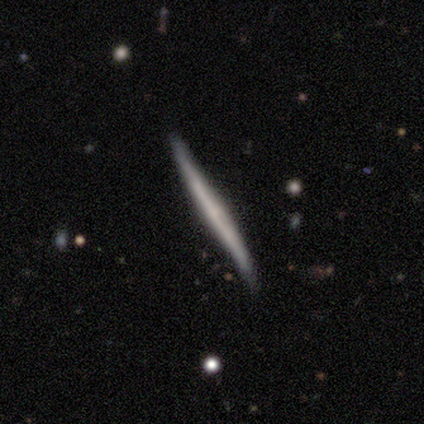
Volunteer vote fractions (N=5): Smooth or featured?
  - featured or disk: 60% *
  - smooth: 20%
  - star or artifact: 20%
Edge-on disk?
  - yes: 100% *
  - no: 0%
Edge-on bulge?
  - rounded: 67% *
  - none: 33%
  - boxy: 0%
Merging?
  - none: 100% *
  - minor disturbance: 0%
  - major disturbance: 0%
  - merger: 0%